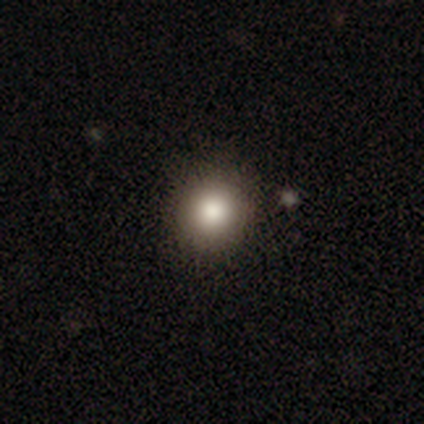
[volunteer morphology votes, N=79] This appears to be a smooth galaxy with no disk features (85%) that is round (94%). Merging: none (47%).